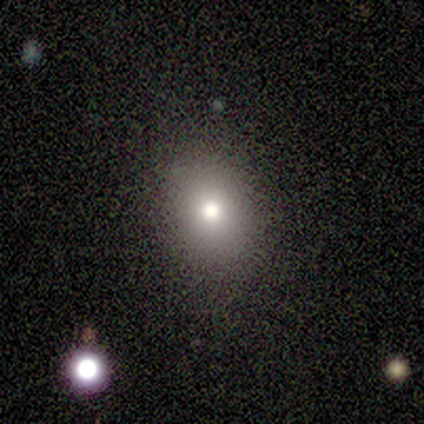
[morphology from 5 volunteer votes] smooth-or-featured: smooth: 100% | featured or disk: 0% | star or artifact: 0%
  how-rounded: in between: 80% | round: 20% | cigar-shaped: 0%
  merging: none: 80% | minor disturbance: 20% | major disturbance: 0% | merger: 0%